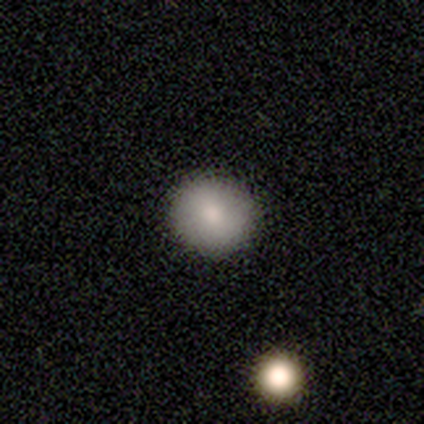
Q: Smooth or featured?
A: smooth (82%); runner-up: featured or disk (11%)
Q: How rounded?
A: round (90%); runner-up: in between (10%)
Q: Merging?
A: none (89%); runner-up: minor disturbance (6%)